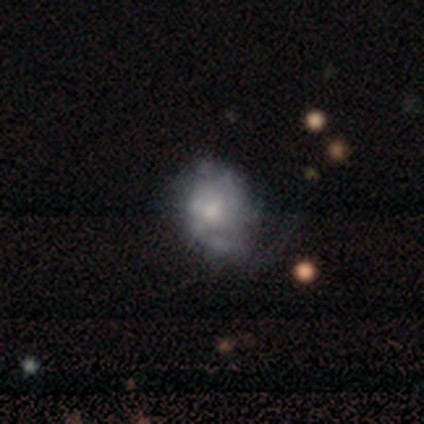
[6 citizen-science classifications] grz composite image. It shows a featured or disk galaxy (67%) with no bar (100%), no spiral arms (100%) and a small central bulge (75%). Merging: minor disturbance (50%).